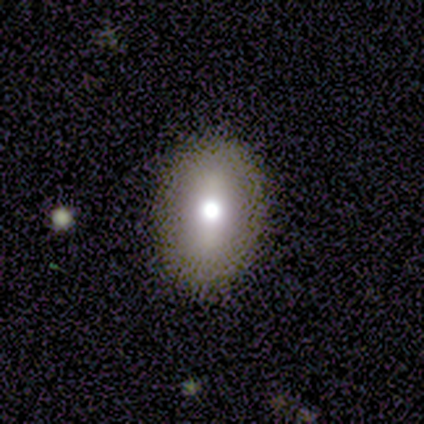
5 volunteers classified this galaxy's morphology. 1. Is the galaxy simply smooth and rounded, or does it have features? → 60% smooth, 40% featured or disk, 0% star or artifact.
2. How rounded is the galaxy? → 67% in between, 33% cigar-shaped, 0% round.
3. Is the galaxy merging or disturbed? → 100% none, 0% minor disturbance, 0% major disturbance, 0% merger.